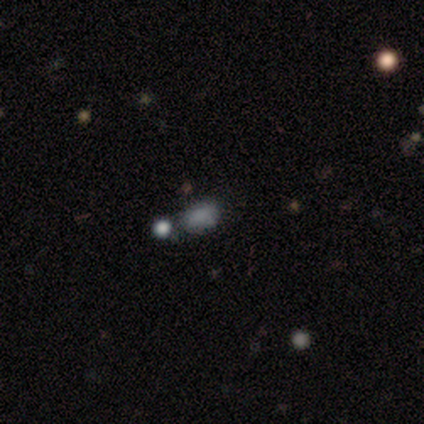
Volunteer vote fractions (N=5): Volunteers were most divided on "merging": none: 80%, merger: 20%, minor disturbance: 0%, major disturbance: 0%. More confident: smooth or featured — smooth (100%); how rounded — in between (100%).